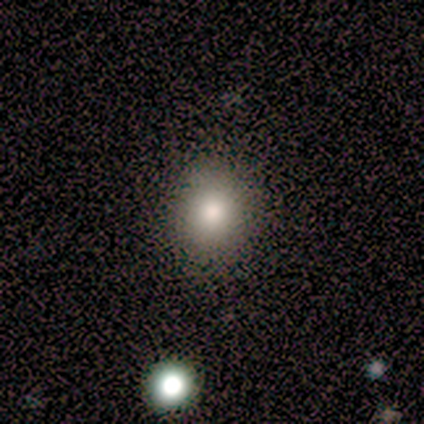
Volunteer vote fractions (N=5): Smooth or featured?
  - smooth: 80% *
  - star or artifact: 20%
  - featured or disk: 0%
How rounded?
  - round: 100% *
  - in between: 0%
  - cigar-shaped: 0%
Merging?
  - none: 100% *
  - minor disturbance: 0%
  - major disturbance: 0%
  - merger: 0%